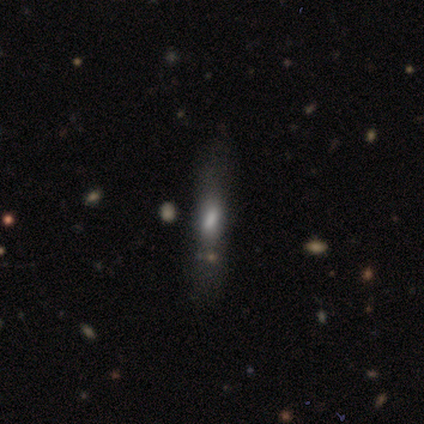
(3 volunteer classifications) This appears to be a featured or disk galaxy (67%) viewed edge-on (50%, tied with no) with a boxy central bulge (100%). Merging: none (100%).